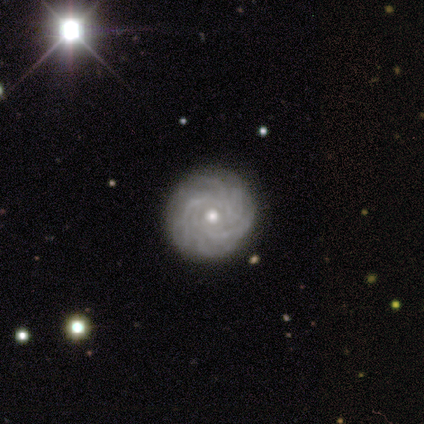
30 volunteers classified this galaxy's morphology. Smooth or featured? featured or disk (87%)
Edge-on disk? no (96%)
Bar? no (88%)
Spiral arms? yes (96%)
Spiral winding? tight (79%)
Spiral arm count? more than 4 (42%)
Bulge size? moderate (68%)
Merging? none (93%)